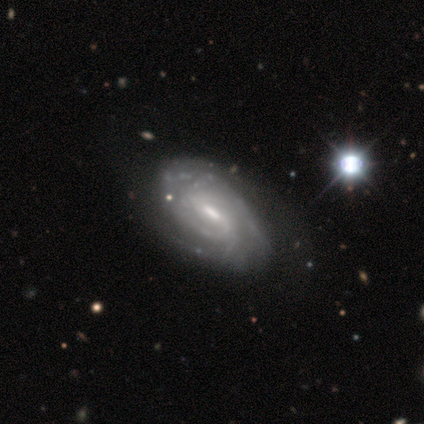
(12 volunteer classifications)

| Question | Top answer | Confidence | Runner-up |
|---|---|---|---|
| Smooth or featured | featured or disk | 83% | smooth (8%) |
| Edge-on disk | no | 100% | — |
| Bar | weak | 70% | strong (30%) |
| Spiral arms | yes | 100% | — |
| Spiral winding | tight | 60% | medium (30%) |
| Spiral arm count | can't tell | 30% | 2 (20%) |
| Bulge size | moderate | 50% | small (30%) |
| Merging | none | 73% | minor disturbance (18%) |